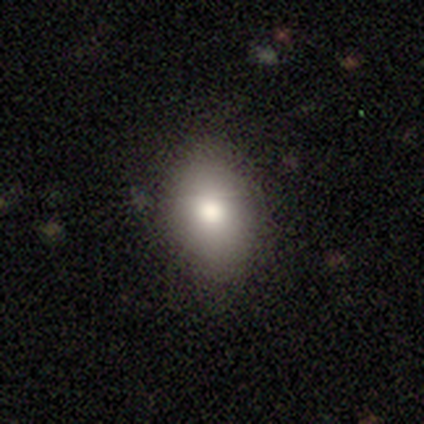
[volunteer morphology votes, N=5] Q: Smooth or featured?
A: smooth (100%)
Q: How rounded?
A: in between (80%); runner-up: round (20%)
Q: Merging?
A: none (100%)